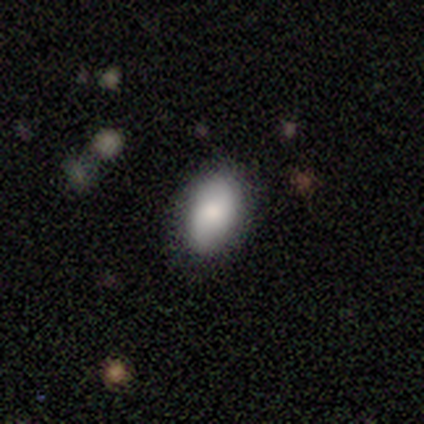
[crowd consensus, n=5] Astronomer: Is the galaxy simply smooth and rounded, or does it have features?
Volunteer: smooth — 100%.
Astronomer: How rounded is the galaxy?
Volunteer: in between — 100%.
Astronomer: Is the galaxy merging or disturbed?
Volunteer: none — 80%.